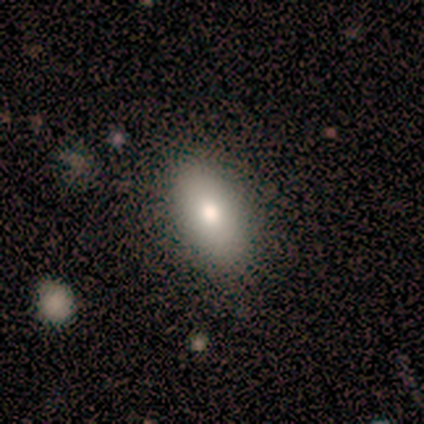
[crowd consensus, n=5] smooth-or-featured: smooth: 100% | featured or disk: 0% | star or artifact: 0%
  how-rounded: in between: 100% | round: 0% | cigar-shaped: 0%
  merging: none: 100% | minor disturbance: 0% | major disturbance: 0% | merger: 0%